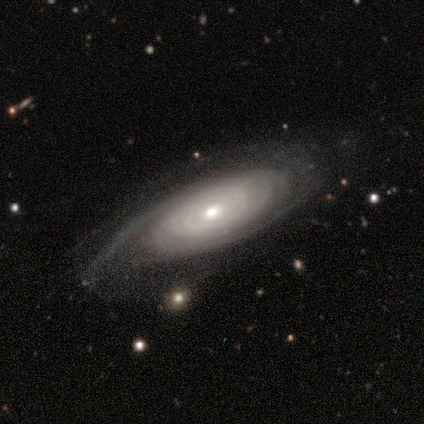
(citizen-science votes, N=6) Overall: featured or disk (83%). Edge-on disk: no (80%). Bar: no (100%). Spiral arms: yes (100%). Spiral arm count: 2 (75%). Spiral winding: tight (50%, tied with medium). Bulge size: moderate (50%, tied with small). Merging: none (67%).